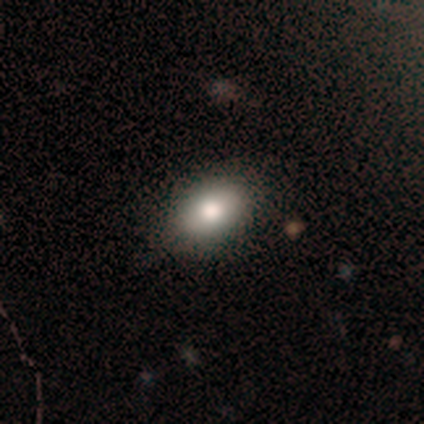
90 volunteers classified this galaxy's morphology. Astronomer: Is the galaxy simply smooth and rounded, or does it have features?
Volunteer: smooth — 78%.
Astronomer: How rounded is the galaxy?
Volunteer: in between — 83%.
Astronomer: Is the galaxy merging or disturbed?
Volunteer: none — 81%.